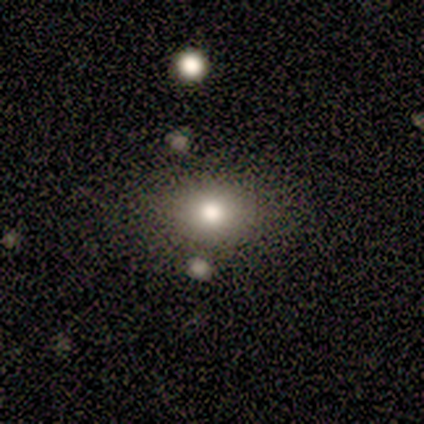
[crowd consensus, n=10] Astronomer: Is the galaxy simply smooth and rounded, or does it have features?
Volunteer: smooth — 70%.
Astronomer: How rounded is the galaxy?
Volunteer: in between — 57% (runner-up: round, 43%).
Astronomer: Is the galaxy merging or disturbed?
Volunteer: none — 75%.